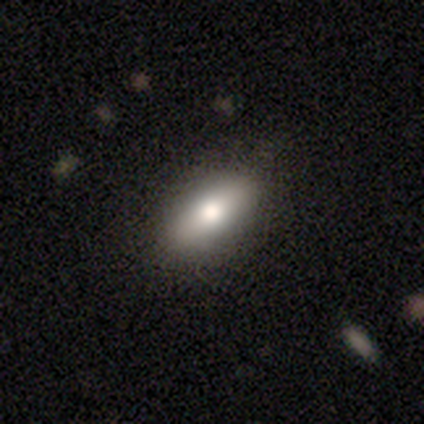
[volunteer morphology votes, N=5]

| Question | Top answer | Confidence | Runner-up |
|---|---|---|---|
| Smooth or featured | smooth | 60% | featured or disk (20%) |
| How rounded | in between | 100% | — |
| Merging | none | 75% | minor disturbance (25%) |